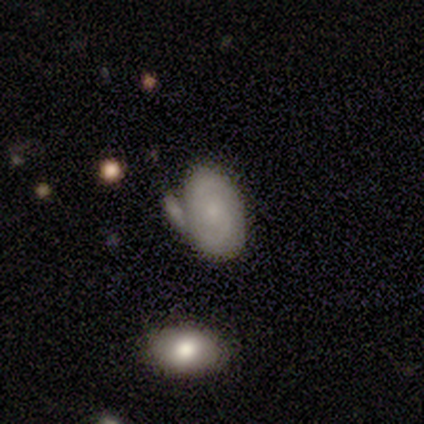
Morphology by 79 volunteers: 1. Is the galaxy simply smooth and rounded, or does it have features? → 61% featured or disk, 39% smooth, 0% star or artifact.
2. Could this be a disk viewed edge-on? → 100% no, 0% yes.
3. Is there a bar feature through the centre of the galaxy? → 79% no, 19% weak, 2% strong.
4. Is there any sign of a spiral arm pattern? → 73% yes, 27% no.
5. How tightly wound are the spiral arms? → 54% tight, 31% medium, 14% loose.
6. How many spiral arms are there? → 86% 2, 9% can't tell, 3% 1, 3% more than 4, 0% 3, 0% 4.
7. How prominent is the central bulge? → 67% small, 23% none, 6% moderate, 2% dominant, 2% large.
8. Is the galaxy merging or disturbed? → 30% merger, 20% none, 11% minor disturbance, 6% major disturbance.